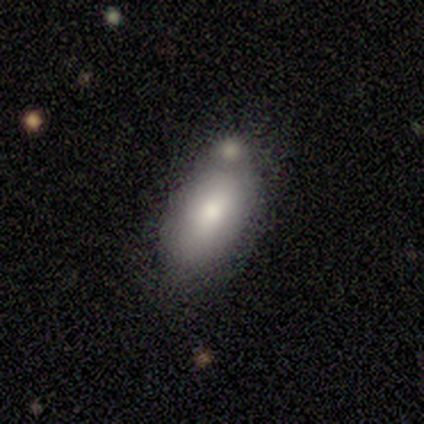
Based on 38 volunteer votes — smooth 68%, featured or disk 24%, star or artifact 8%. Down the decision tree: how rounded — in between (92%); merging — none (40%).